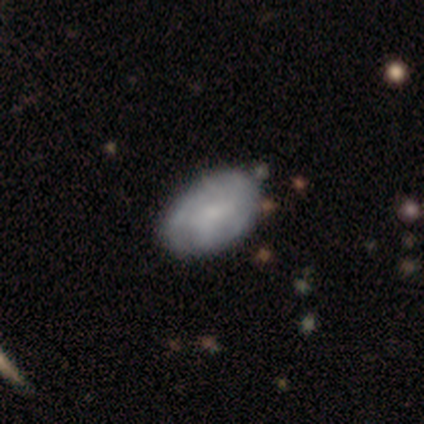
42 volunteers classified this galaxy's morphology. smooth-or-featured: featured or disk: 60% | smooth: 33% | star or artifact: 7%
  disk-edge-on: no: 100% | yes: 0%
    bar: no: 68% | weak: 24% | strong: 8%
    has-spiral-arms: yes: 64% | no: 36%
      spiral-winding: medium: 50% | tight: 25% | loose: 25%
      spiral-arm-count: can't tell: 44% | 2: 19% | 1: 12% | more than 4: 12% | 3: 6% | 4: 6%
    bulge-size: small: 48% | moderate: 28% | none: 20% | large: 4% | dominant: 0%
  merging: none: 56% | minor disturbance: 21% | merger: 8% | major disturbance: 0%